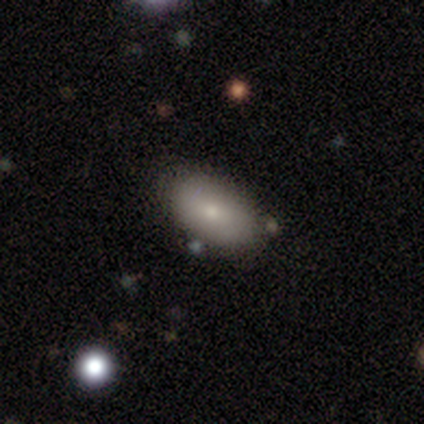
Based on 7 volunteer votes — Volunteers were most divided on "smooth or featured": smooth: 71%, featured or disk: 29%, star or artifact: 0%. More confident: how rounded — in between (100%); merging — none (100%).